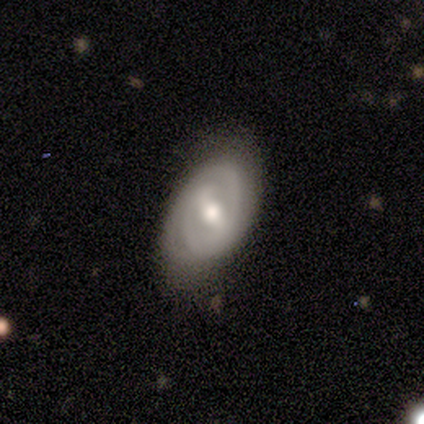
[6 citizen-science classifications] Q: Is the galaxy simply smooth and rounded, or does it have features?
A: featured or disk — 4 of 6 (67%).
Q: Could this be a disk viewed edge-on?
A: no — 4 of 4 (100%).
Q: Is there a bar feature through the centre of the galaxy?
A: weak — 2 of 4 (50%).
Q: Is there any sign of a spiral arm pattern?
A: yes — 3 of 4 (75%).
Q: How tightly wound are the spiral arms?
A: tight — 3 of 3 (100%).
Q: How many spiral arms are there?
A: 2 — 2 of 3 (67%).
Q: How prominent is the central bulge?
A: moderate — 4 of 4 (100%).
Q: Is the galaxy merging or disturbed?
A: none — 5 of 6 (83%).